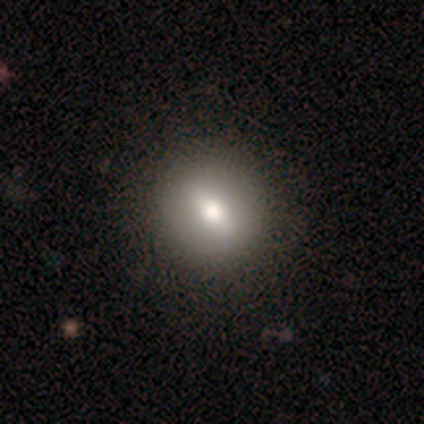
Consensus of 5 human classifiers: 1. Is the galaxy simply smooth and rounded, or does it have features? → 40% featured or disk (tied), 40% star or artifact (tied), 20% smooth.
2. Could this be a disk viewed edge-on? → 50% yes (tied), 50% no (tied).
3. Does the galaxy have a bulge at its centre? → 100% rounded, 0% boxy, 0% none.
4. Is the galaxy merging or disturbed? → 67% none, 33% minor disturbance, 0% major disturbance, 0% merger.